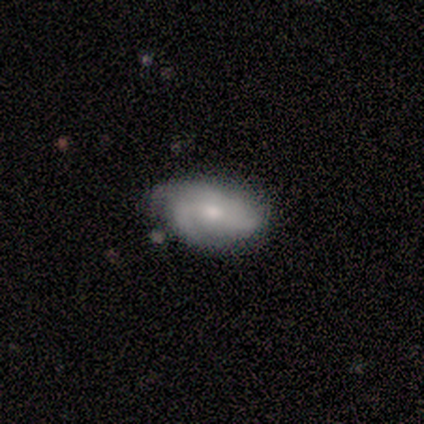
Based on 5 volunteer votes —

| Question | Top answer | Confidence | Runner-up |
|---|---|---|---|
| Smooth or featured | featured or disk | 60% | smooth (40%) |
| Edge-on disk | no | 100% | — |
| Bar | weak | 100% | — |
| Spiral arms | yes | 67% | no (33%) |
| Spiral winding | loose | 100% | — |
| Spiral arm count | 2 | 50% | tied: can't tell (50%) |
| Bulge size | moderate | 67% | small (33%) |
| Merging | none | 80% | minor disturbance (20%) |